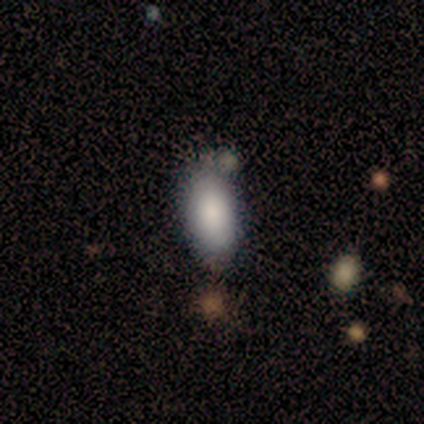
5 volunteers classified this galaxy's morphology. This is clearly a smooth galaxy (80%). How rounded: clearly in between (100%). Merging: possibly none (50%).